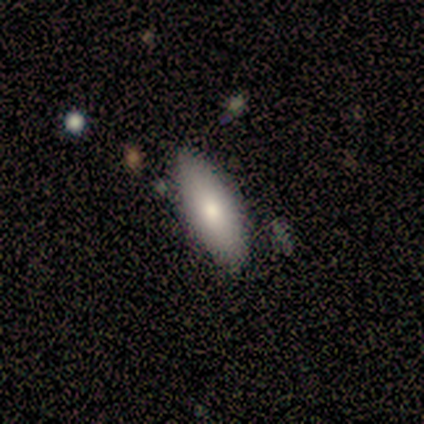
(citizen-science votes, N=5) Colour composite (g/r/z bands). It shows a featured or disk galaxy (60%) with a weak bar (67%), no spiral arms (67%) and a moderate central bulge (100%). Merging: minor disturbance (60%).